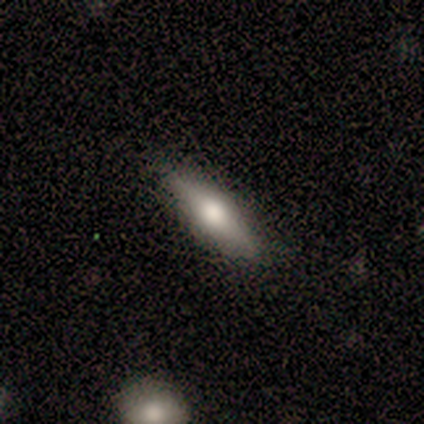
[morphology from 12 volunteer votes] Overall: smooth (67%). How rounded: cigar-shaped (62%; in between 38%). Merging: none (100%).